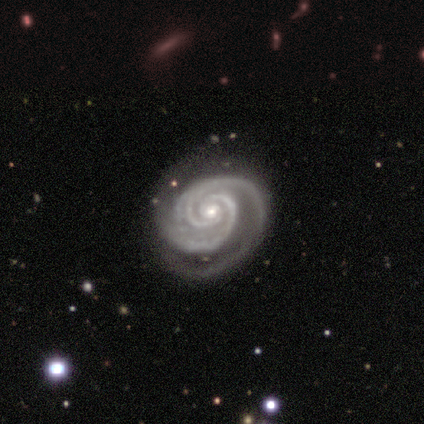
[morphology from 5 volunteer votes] Overall: featured or disk (100%). Edge-on disk: no (100%). Bar: no (80%). Spiral arms: yes (100%). Spiral arm count: 2 (80%). Spiral winding: tight (100%). Bulge size: small (80%). Merging: none (60%; minor disturbance 40%).